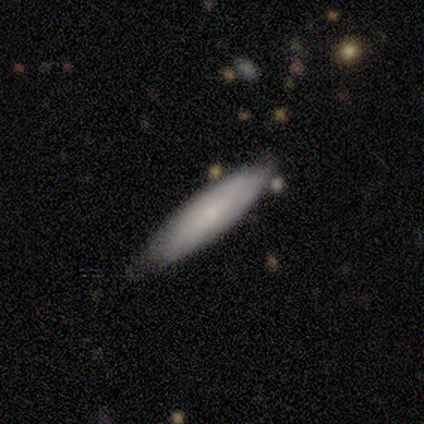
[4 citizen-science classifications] Overall: smooth (50%; featured or disk 25%). How rounded: in between (100%). Merging: none (67%; minor disturbance 33%).